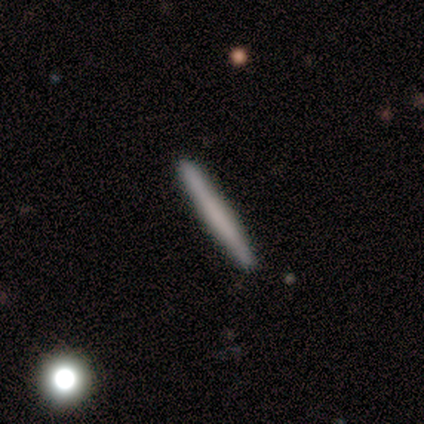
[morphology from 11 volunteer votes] This appears to be a smooth galaxy with no disk features (64%) that is cigar-shaped (100%). Merging: none (100%).